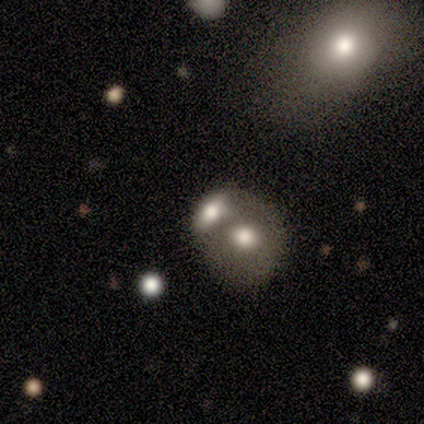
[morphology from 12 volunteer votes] Q: Smooth or featured?
A: smooth (75%); runner-up: featured or disk (17%)
Q: How rounded?
A: round (78%); runner-up: in between (22%)
Q: Merging?
A: none (45%); tied with: merger (45%)